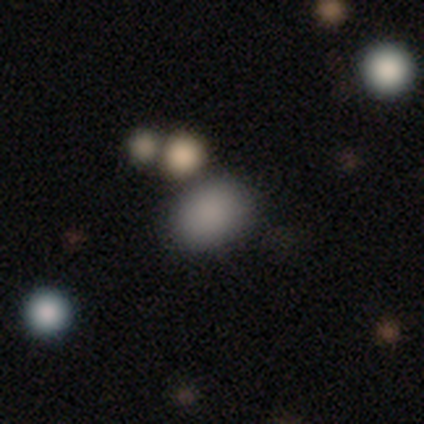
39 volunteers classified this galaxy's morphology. smooth 77%, star or artifact 18%, featured or disk 5%. Down the decision tree: how rounded — in between (73%); merging — none (66%).